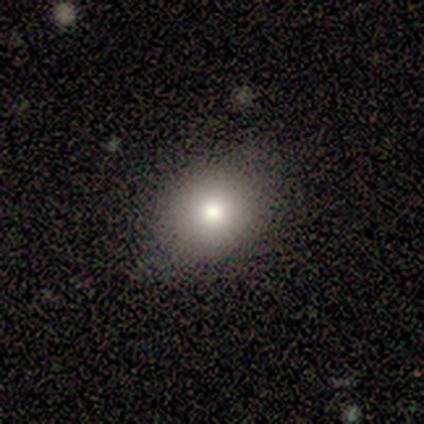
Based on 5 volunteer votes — Smooth or featured? 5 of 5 (100%) said smooth. How rounded? 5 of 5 (100%) said round. Merging? 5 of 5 (100%) said none.